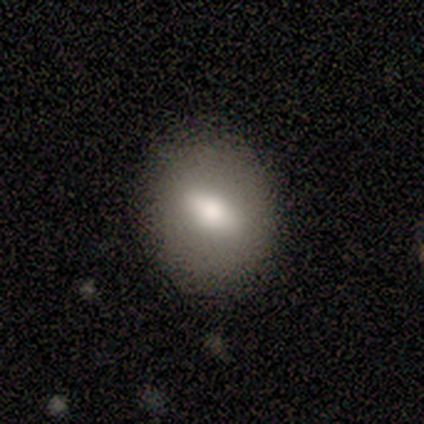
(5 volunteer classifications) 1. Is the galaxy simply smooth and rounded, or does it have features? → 60% smooth, 40% featured or disk, 0% star or artifact.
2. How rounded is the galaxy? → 100% in between, 0% round, 0% cigar-shaped.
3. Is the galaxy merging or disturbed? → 80% none, 20% minor disturbance, 0% major disturbance, 0% merger.